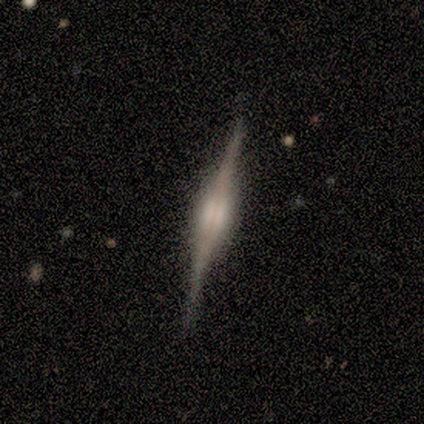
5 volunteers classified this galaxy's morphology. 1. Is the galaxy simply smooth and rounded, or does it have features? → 80% featured or disk, 20% smooth, 0% star or artifact.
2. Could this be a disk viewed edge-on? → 100% yes, 0% no.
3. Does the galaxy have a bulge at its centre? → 100% rounded, 0% boxy, 0% none.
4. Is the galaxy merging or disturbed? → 80% none, 20% merger, 0% minor disturbance, 0% major disturbance.